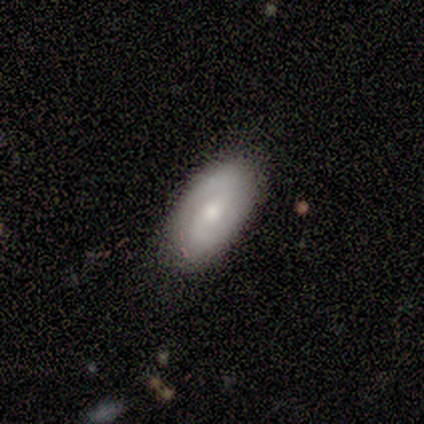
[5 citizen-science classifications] Smooth or featured? featured or disk (80%)
Edge-on disk? no (100%)
Bar? weak (75%)
Spiral arms? yes (50%, tied with no)
Spiral winding? loose (100%)
Spiral arm count? 2 (100%)
Bulge size? moderate (50%, tied with small)
Merging? none (100%)